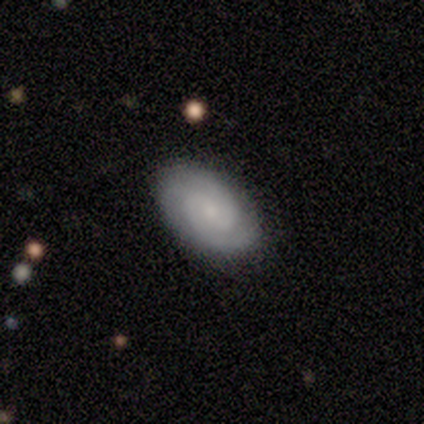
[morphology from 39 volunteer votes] smooth-or-featured: featured or disk: 74% | smooth: 23% | star or artifact: 3%
  disk-edge-on: no: 93% | yes: 7%
    bar: no: 74% | weak: 22% | strong: 4%
    has-spiral-arms: yes: 96% | no: 4%
      spiral-winding: tight: 54% | medium: 42% | loose: 4%
      spiral-arm-count: 2: 69% | can't tell: 23% | 3: 8% | 1: 0% | 4: 0% | more than 4: 0%
    bulge-size: small: 59% | none: 22% | moderate: 15% | large: 4% | dominant: 0%
  merging: none: 89% | minor disturbance: 5% | merger: 5% | major disturbance: 0%